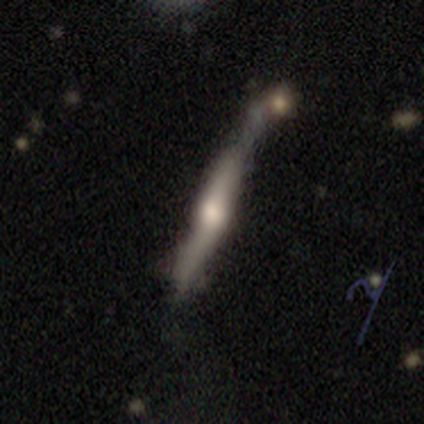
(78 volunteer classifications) Smooth or featured: featured or disk — 67% (smooth — 28%)
Edge-on disk: yes — 94% (no — 6%)
Edge-on bulge: rounded — 90% (boxy — 8%)
Merging: merger — 22% (minor disturbance — 16%)